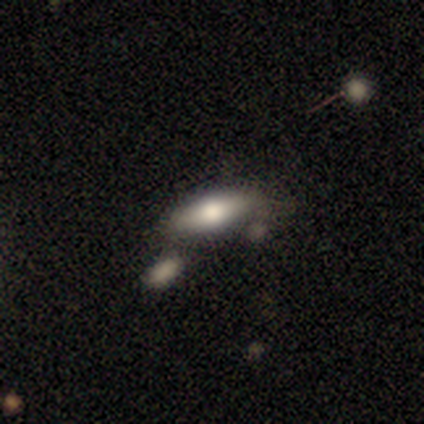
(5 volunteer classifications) Volunteers were most divided on "merging": none: 60%, minor disturbance: 20%, merger: 20%, major disturbance: 0%. More confident: smooth or featured — smooth (100%); how rounded — in between (100%).